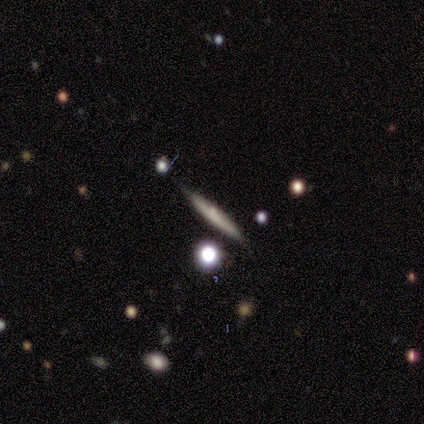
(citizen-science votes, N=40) Q: Smooth or featured?
A: smooth (45%); tied with: featured or disk (45%)
Q: How rounded?
A: cigar-shaped (83%); runner-up: round (17%)
Q: Merging?
A: none (81%); runner-up: minor disturbance (11%)